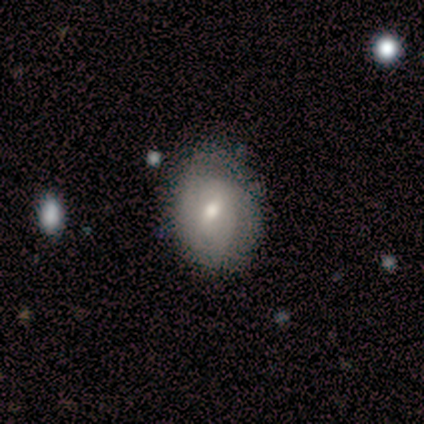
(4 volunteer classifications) smooth 75%, featured or disk 25%, star or artifact 0%. Down the decision tree: how rounded — in between (67%); merging — none (100%).